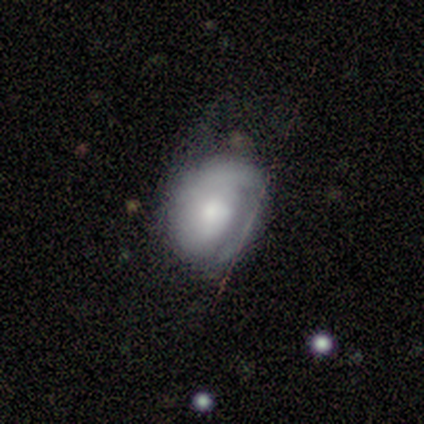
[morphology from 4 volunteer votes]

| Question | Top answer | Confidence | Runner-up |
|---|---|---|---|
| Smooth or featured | featured or disk | 75% | smooth (25%) |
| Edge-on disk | no | 100% | — |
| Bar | no | 100% | — |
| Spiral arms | no | 67% | yes (33%) |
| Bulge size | small | 67% | moderate (33%) |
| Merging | none | 75% | minor disturbance (25%) |